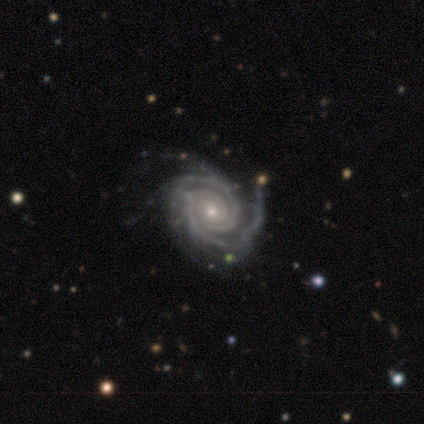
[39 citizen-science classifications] A featured or disk galaxy (97%) with no bar (87%), 2 (42%) tight (95%) spiral arms (100%) and a small central bulge (68%). Merging: none (41%).